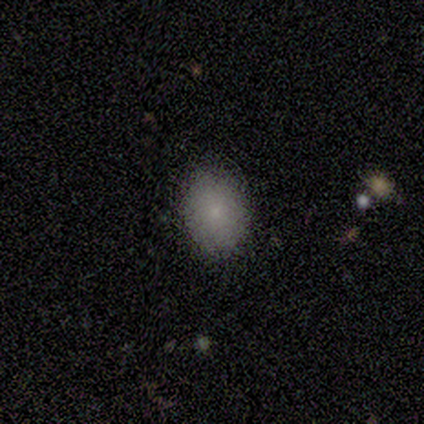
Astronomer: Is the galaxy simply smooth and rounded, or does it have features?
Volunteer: smooth — 100%.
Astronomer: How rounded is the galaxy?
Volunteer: in between — 75%.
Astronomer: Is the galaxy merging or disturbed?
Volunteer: none — 100%.